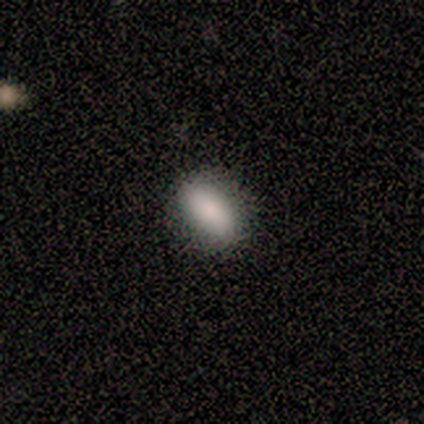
Smooth or featured?
  - smooth: 100% *
  - featured or disk: 0%
  - star or artifact: 0%
How rounded?
  - in between: 100% *
  - round: 0%
  - cigar-shaped: 0%
Merging?
  - none: 100% *
  - minor disturbance: 0%
  - major disturbance: 0%
  - merger: 0%